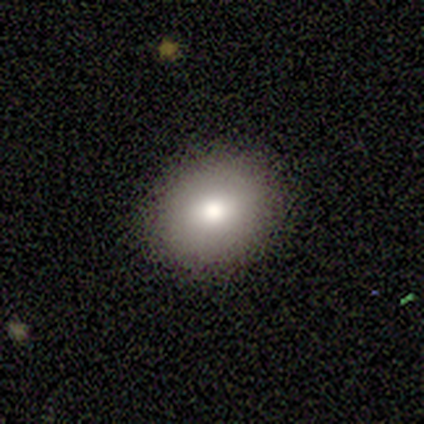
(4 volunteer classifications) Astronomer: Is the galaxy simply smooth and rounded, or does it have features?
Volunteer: smooth — 75%.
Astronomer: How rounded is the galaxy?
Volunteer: round — 67%.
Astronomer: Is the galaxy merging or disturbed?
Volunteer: none — 75%.